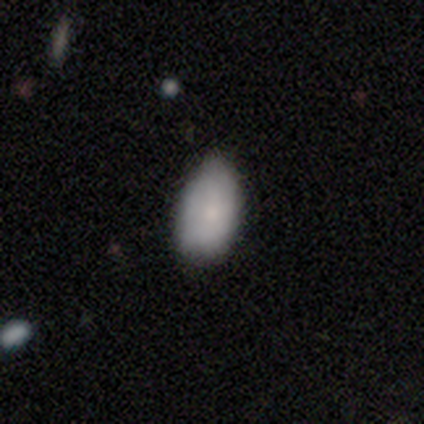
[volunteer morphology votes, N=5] smooth-or-featured: smooth: 80% | star or artifact: 20% | featured or disk: 0%
  how-rounded: in between: 100% | round: 0% | cigar-shaped: 0%
  merging: minor disturbance: 50% | none: 25% | major disturbance: 25% | merger: 0%